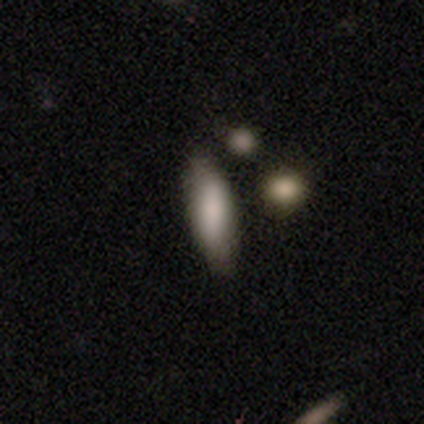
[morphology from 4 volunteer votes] smooth_or_featured: smooth (p=0.75) [alt: featured or disk p=0.25]
how_rounded: in between (p=0.67) [alt: cigar-shaped p=0.33]
merging: none (p=1.00)